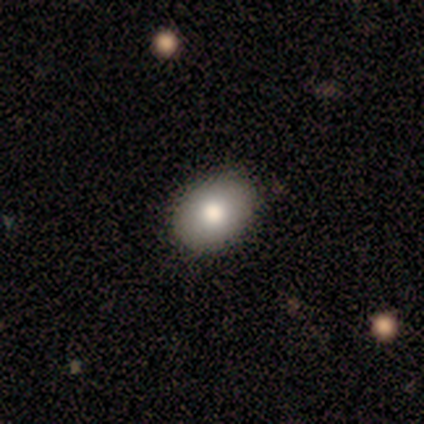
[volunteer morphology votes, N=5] type=smooth (100%); roundness=in between (100%); merging=none (100%).